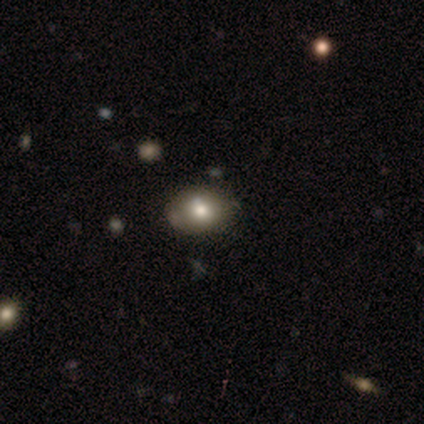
Smooth or featured?
  - smooth: 80% *
  - featured or disk: 20%
  - star or artifact: 0%
How rounded?
  - in between: 75% *
  - round: 25%
  - cigar-shaped: 0%
Merging?
  - none: 60% *
  - minor disturbance: 40%
  - major disturbance: 0%
  - merger: 0%